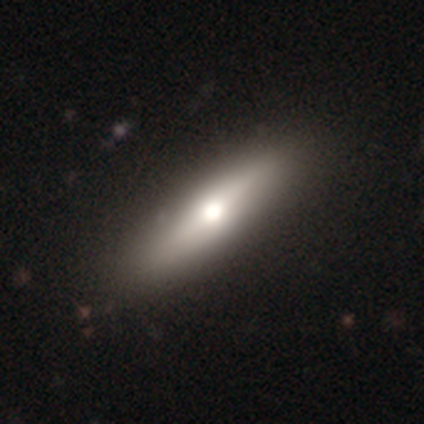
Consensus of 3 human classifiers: featured or disk 100%, smooth 0%, star or artifact 0%. Down the decision tree: edge-on disk — yes (67%); edge-on bulge — rounded (100%); merging — none (100%).